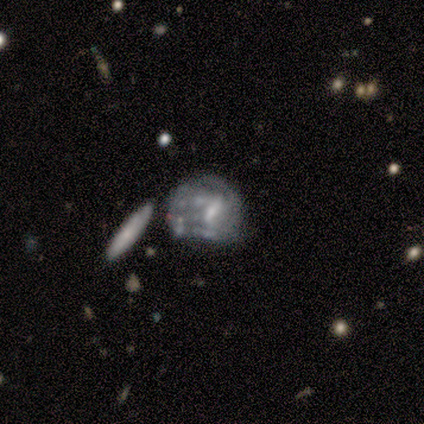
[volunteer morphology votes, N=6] smooth-or-featured: featured or disk: 67% | smooth: 17% | star or artifact: 17%
  disk-edge-on: no: 100% | yes: 0%
    bar: weak: 50% (tied) | no: 50% (tied) | strong: 0%
    has-spiral-arms: yes: 50% (tied) | no: 50% (tied)
      spiral-winding: medium: 50% (tied) | loose: 50% (tied) | tight: 0%
      spiral-arm-count: 2: 50% (tied) | 3: 50% (tied) | 1: 0% | 4: 0% | more than 4: 0% | can't tell: 0%
    bulge-size: small: 75% | moderate: 25% | dominant: 0% | large: 0% | none: 0%
  merging: major disturbance: 40% | none: 20% | minor disturbance: 20% | merger: 20%